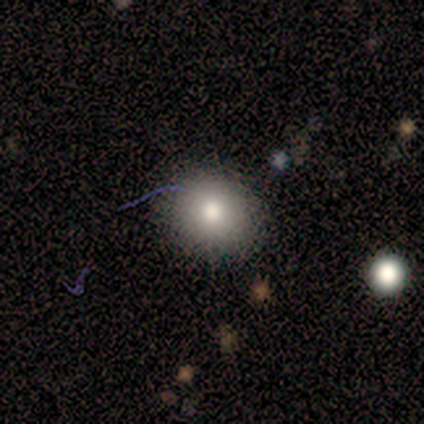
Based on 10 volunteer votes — Q: Smooth or featured?
A: smooth (60%); runner-up: featured or disk (20%)
Q: How rounded?
A: round (50%); tied with: in between (50%)
Q: Merging?
A: none (88%); runner-up: merger (12%)